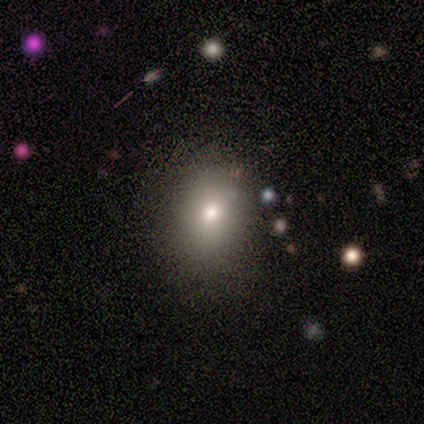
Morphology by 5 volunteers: Overall: smooth (80%). How rounded: round (75%). Merging: none (100%).